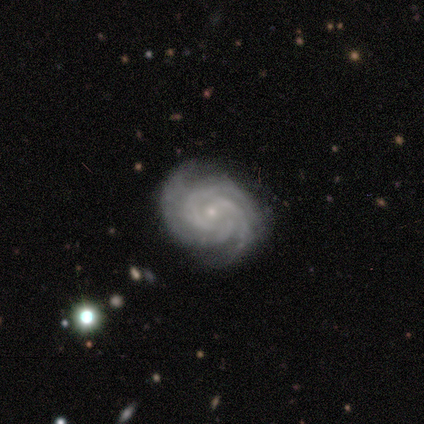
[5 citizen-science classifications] Q: Smooth or featured?
A: featured or disk (100%)
Q: Edge-on disk?
A: no (100%)
Q: Bar?
A: no (80%); runner-up: strong (20%)
Q: Spiral arms?
A: yes (100%)
Q: Spiral winding?
A: tight (40%); tied with: medium (40%)
Q: Spiral arm count?
A: 3 (60%); runner-up: 4 (20%)
Q: Bulge size?
A: small (100%)
Q: Merging?
A: none (100%)